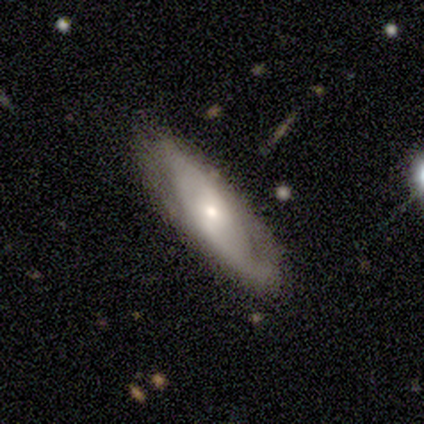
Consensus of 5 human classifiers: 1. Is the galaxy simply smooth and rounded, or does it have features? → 60% featured or disk, 40% smooth, 0% star or artifact.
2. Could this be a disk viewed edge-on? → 67% no, 33% yes.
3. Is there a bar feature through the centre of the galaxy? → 50% weak (tied), 50% no (tied), 0% strong.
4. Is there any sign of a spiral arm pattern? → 50% yes (tied), 50% no (tied).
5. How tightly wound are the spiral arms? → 100% medium, 0% tight, 0% loose.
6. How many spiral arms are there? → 100% can't tell, 0% 1, 0% 2, 0% 3, 0% 4, 0% more than 4.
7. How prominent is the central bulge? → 100% small, 0% dominant, 0% large, 0% moderate, 0% none.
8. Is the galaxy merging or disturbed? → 60% none, 40% minor disturbance, 0% major disturbance, 0% merger.